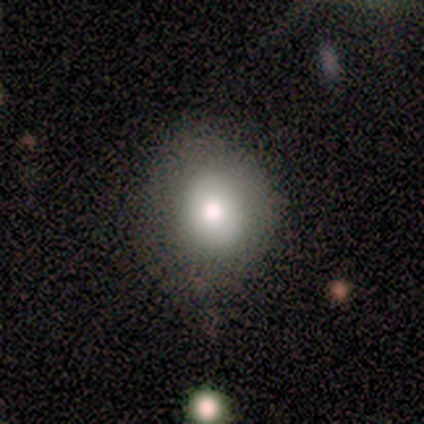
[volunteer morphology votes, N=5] Smooth or featured? 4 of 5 (80%) said smooth. How rounded? 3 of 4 (75%) said round. Merging? 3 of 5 (60%) said none.